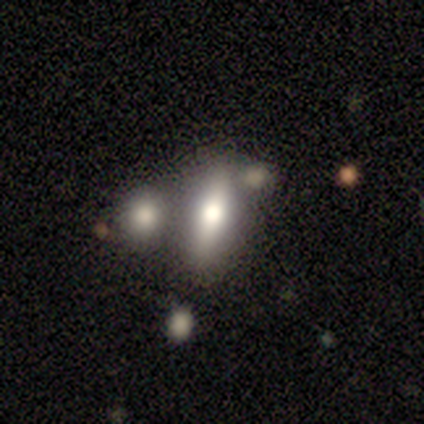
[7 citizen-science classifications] Morphology: type=smooth (71%); roundness=cigar-shaped (80%); merging=none (50%).